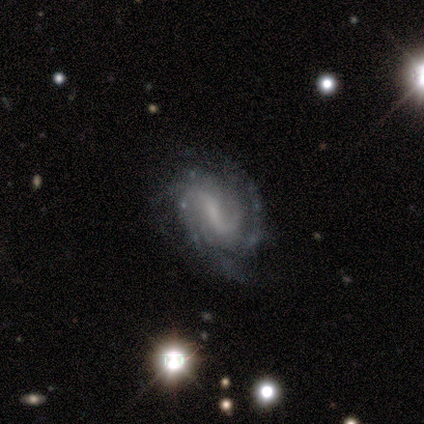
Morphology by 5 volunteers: Smooth or featured? 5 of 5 (100%) said featured or disk. Edge-on disk? 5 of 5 (100%) said no. Bar? 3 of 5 (60%) said weak. Spiral arms? 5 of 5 (100%) said yes. Spiral winding? 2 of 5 (40%, tied with medium) said tight. Spiral arm count? 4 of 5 (80%) said can't tell. Bulge size? 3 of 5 (60%) said none. Merging? 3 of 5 (60%) said none.